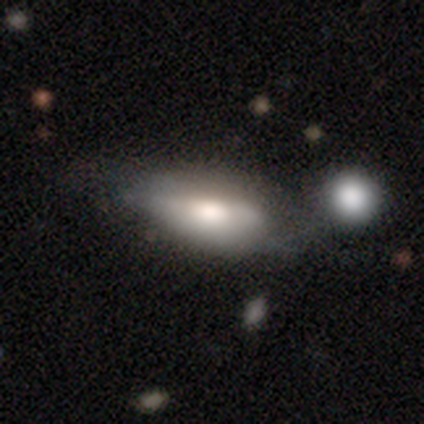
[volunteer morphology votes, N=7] Smooth or featured?
  - smooth: 71% *
  - featured or disk: 29%
  - star or artifact: 0%
How rounded?
  - in between: 80% *
  - cigar-shaped: 20%
  - round: 0%
Merging?
  - none: 29% * (tied)
  - minor disturbance: 29% * (tied)
  - merger: 29% * (tied)
  - major disturbance: 14%